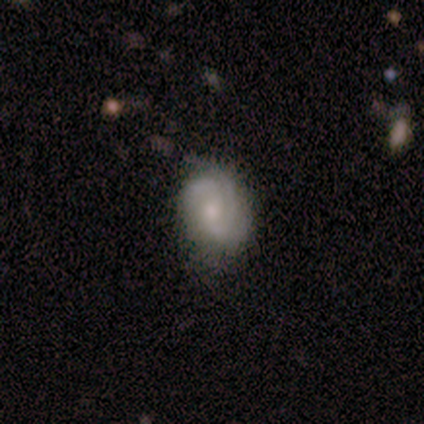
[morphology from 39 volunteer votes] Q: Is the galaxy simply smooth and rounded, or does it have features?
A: featured or disk — 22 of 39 (56%).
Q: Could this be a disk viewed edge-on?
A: no — 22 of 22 (100%).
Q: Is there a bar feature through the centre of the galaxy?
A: no — 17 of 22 (77%).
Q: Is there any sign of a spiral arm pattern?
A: yes — 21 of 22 (95%).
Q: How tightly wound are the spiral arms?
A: tight — 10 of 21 (48%).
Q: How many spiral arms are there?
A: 3 — 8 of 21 (38%).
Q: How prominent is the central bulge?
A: small — 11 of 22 (50%).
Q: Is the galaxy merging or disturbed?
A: none — 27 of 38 (71%).